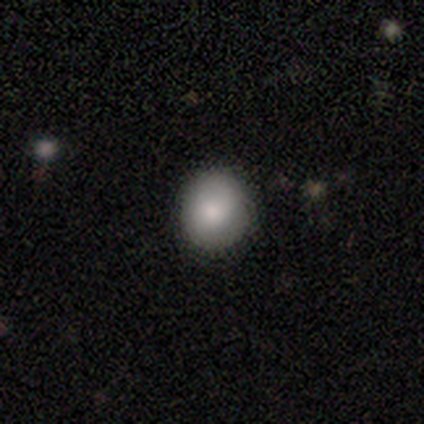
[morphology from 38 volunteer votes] A smooth galaxy with no disk features (82%) that is round (90%). Merging: none (86%).